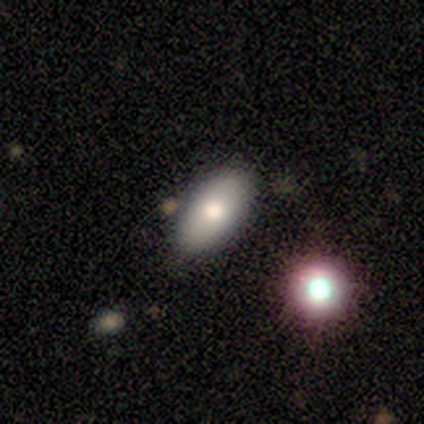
Smooth or featured? 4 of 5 (80%) said smooth. How rounded? 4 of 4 (100%) said in between. Merging? 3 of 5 (60%) said minor disturbance.